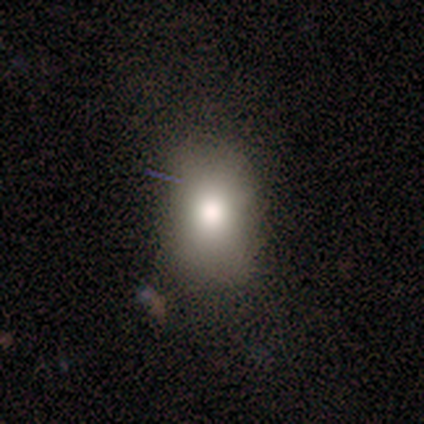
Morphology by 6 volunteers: This is clearly a smooth galaxy (83%). How rounded: likely in between (60%). Merging: clearly none (100%).